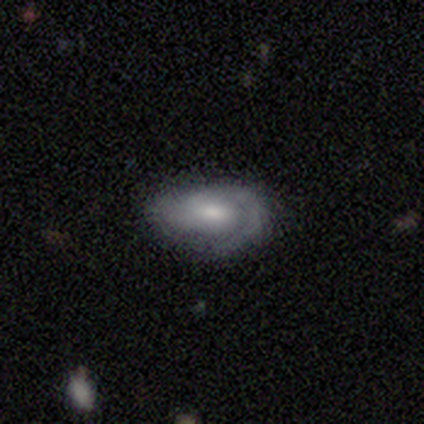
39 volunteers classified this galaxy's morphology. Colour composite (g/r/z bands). It shows a featured or disk galaxy (54%) with no bar (50%), 2 (50%) tight (75%) spiral arms (80%) and a moderate central bulge (55%). Merging: none (74%).